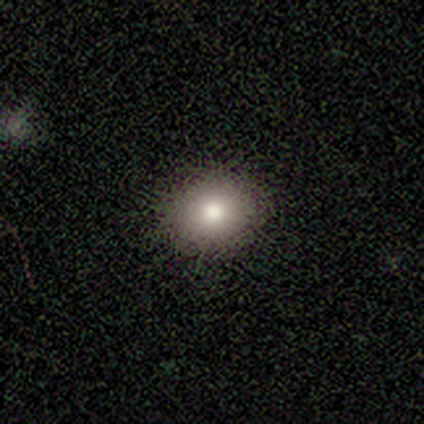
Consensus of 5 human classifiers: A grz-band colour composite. It shows a smooth galaxy with no disk features (100%) that is round (80%). Merging: none (100%).